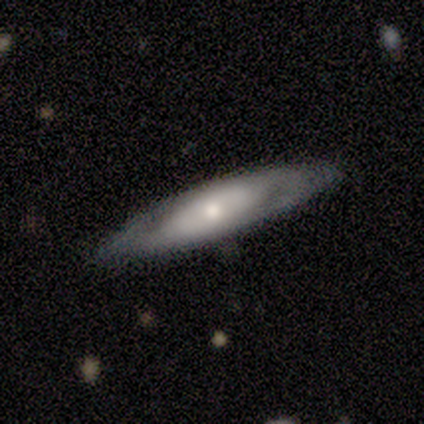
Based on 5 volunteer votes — Smooth or featured? featured or disk (60%)
Edge-on disk? no (67%)
Bar? weak (50%, tied with no)
Spiral arms? yes (50%, tied with no)
Spiral winding? medium (100%)
Spiral arm count? can't tell (100%)
Bulge size? small (100%)
Merging? none (60%)